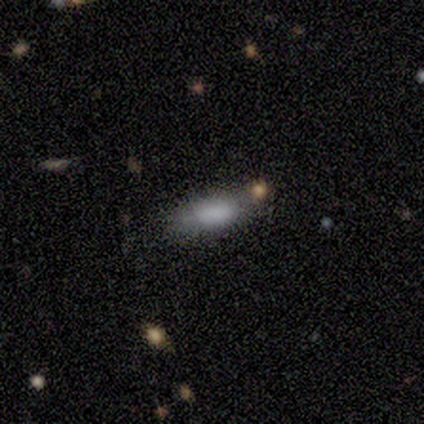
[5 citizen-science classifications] A smooth galaxy with no disk features (100%) that is in between round and cigar-shaped (80%).

Vote fractions:
- Smooth or featured? smooth: 100% / featured or disk: 0% / star or artifact: 0%
- How rounded? in between: 80% / cigar-shaped: 20% / round: 0%
- Merging? none: 100% / minor disturbance: 0% / major disturbance: 0% / merger: 0%